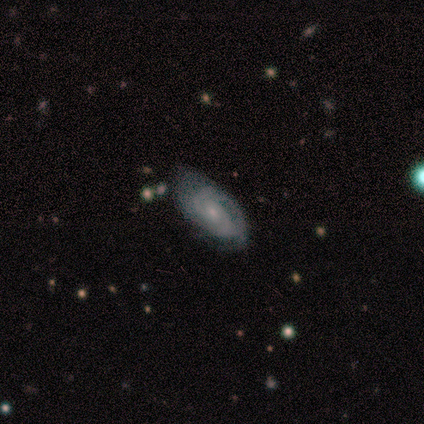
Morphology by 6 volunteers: Overall: featured or disk (67%). Edge-on disk: no (100%). Bar: no (75%). Spiral arms: yes (100%). Spiral arm count: 2 (100%). Spiral winding: tight (75%). Bulge size: small (100%). Merging: none (60%; minor disturbance 40%).